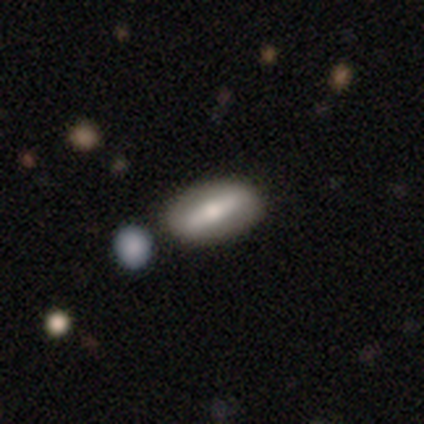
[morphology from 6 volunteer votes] Q: Smooth or featured?
A: featured or disk (67%); runner-up: smooth (33%)
Q: Edge-on disk?
A: yes (50%); tied with: no (50%)
Q: Edge-on bulge?
A: rounded (100%)
Q: Merging?
A: none (83%); runner-up: minor disturbance (17%)